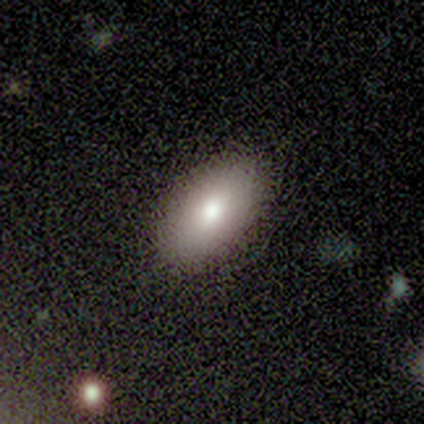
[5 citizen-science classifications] A featured or disk galaxy (60%) with no bar (100%), no spiral arms (100%) and a large central bulge (50%, tied with small).

Vote fractions:
- Smooth or featured? featured or disk: 60% / smooth: 40% / star or artifact: 0%
- Edge-on disk? no: 67% / yes: 33%
- Bar? no: 100% / strong: 0% / weak: 0%
- Spiral arms? no: 100% / yes: 0%
- Bulge size? large: 50% (tied) / small: 50% (tied) / dominant: 0% / moderate: 0% / none: 0%
- Merging? none: 100% / minor disturbance: 0% / major disturbance: 0% / merger: 0%